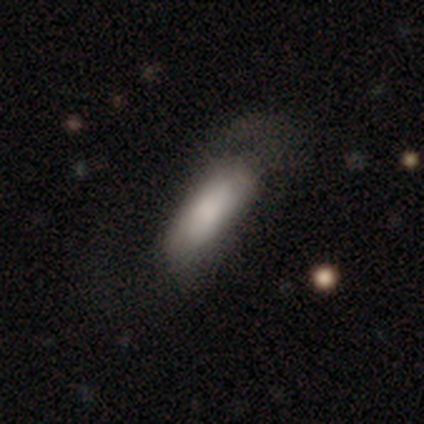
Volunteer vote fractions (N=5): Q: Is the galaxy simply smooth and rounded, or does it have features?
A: smooth — 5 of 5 (100%).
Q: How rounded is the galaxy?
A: in between — 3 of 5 (60%).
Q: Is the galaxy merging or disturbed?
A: none — 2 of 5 (40%, tied with major disturbance).